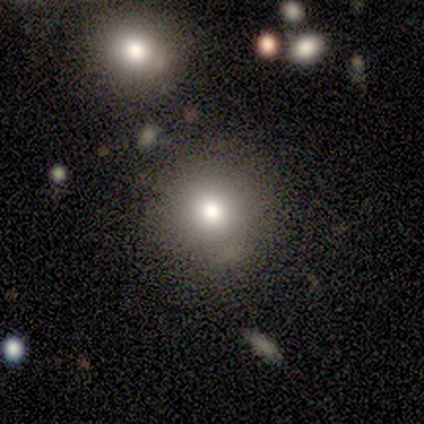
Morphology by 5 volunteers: A smooth galaxy with no disk features (60%) that is round (67%). Merging: none (50%, tied with merger).